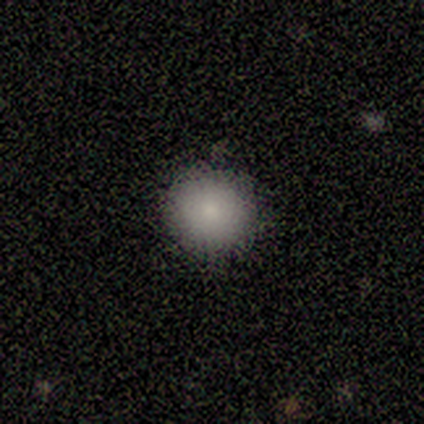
This appears to be a smooth galaxy with no disk features (79%) that is round (97%). Merging: none (97%).